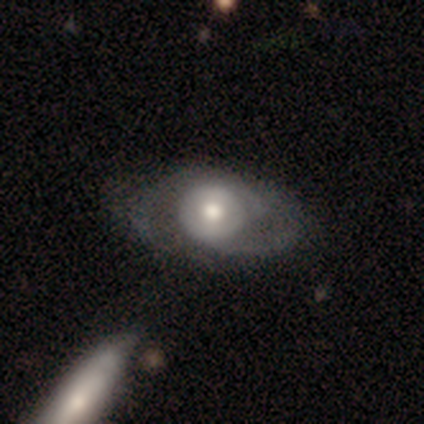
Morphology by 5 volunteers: A featured or disk galaxy (80%) with no bar (75%), 2 (100%) tight (33%, tied with medium and loose) spiral arms (75%) and a moderate central bulge (75%).

Vote fractions:
- Smooth or featured? featured or disk: 80% / smooth: 20% / star or artifact: 0%
- Edge-on disk? no: 100% / yes: 0%
- Bar? no: 75% / weak: 25% / strong: 0%
- Spiral arms? yes: 75% / no: 25%
- Spiral winding? tight: 33% (tied) / medium: 33% (tied) / loose: 33% (tied)
- Spiral arm count? 2: 100% / 1: 0% / 3: 0% / 4: 0% / more than 4: 0% / can't tell: 0%
- Bulge size? moderate: 75% / small: 25% / dominant: 0% / large: 0% / none: 0%
- Merging? none: 80% / merger: 20% / minor disturbance: 0% / major disturbance: 0%